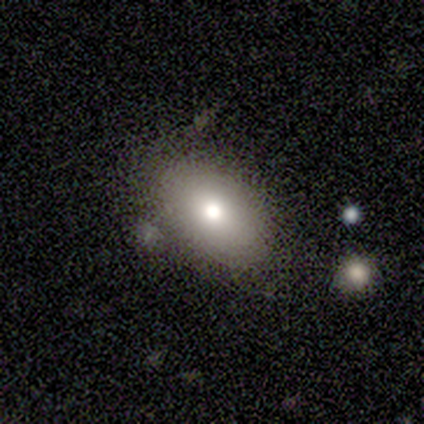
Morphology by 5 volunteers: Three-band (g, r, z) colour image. It shows a smooth galaxy with no disk features (80%) that is in between round and cigar-shaped (75%). Merging: none (100%).